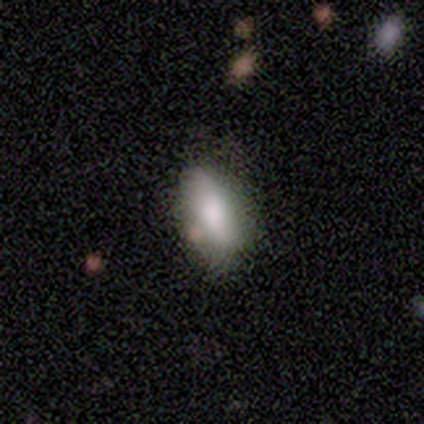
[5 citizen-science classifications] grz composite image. It shows a smooth galaxy with no disk features (60%) that is in between round and cigar-shaped (100%). Merging: none (100%).